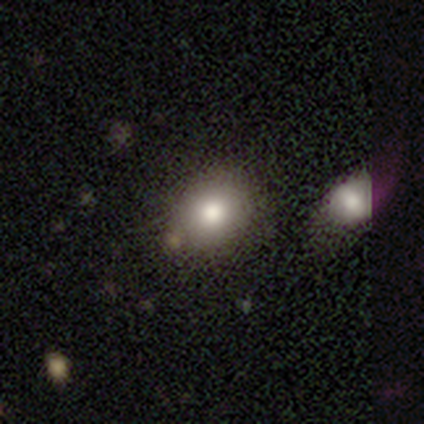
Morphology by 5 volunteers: Volunteers were most divided on "how rounded": round: 80%, in between: 20%, cigar-shaped: 0%. More confident: smooth or featured — smooth (100%); merging — none (80%).